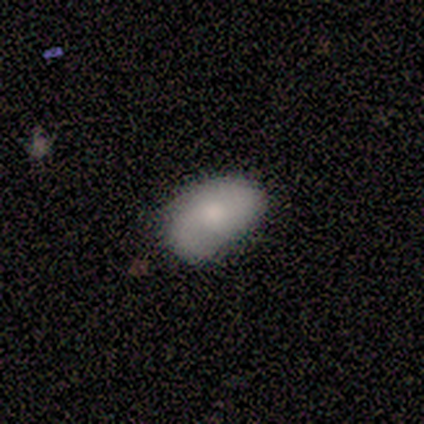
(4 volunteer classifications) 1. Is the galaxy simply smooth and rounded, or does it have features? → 50% smooth (tied), 50% featured or disk (tied), 0% star or artifact.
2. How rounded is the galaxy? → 100% in between, 0% round, 0% cigar-shaped.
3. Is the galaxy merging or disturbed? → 75% none, 25% major disturbance, 0% minor disturbance, 0% merger.